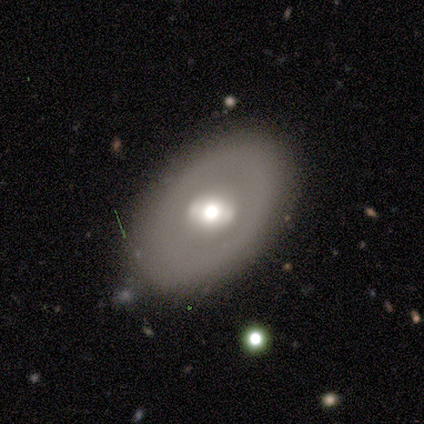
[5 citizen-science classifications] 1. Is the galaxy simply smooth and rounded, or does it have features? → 60% featured or disk, 40% smooth, 0% star or artifact.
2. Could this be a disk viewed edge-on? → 100% no, 0% yes.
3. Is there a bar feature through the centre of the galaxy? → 67% no, 33% weak, 0% strong.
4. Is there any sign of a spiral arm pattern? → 100% no, 0% yes.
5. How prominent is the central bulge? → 67% moderate, 33% large, 0% dominant, 0% small, 0% none.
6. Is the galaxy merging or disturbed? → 60% none, 40% minor disturbance, 0% major disturbance, 0% merger.